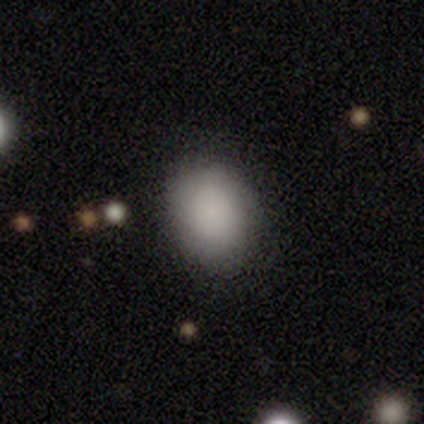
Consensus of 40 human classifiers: Smooth or featured? smooth (88%)
How rounded? in between (63%)
Merging? none (49%)